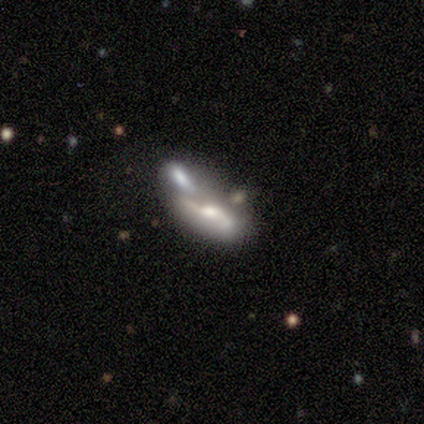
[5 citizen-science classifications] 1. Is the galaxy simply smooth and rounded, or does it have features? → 60% featured or disk, 40% smooth, 0% star or artifact.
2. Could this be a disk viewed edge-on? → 100% no, 0% yes.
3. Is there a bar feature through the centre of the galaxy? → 67% strong, 33% no, 0% weak.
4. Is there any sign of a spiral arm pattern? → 67% yes, 33% no.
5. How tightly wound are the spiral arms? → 100% loose, 0% tight, 0% medium.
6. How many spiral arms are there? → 50% 2 (tied), 50% can't tell (tied), 0% 1, 0% 3, 0% 4, 0% more than 4.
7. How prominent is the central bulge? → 100% moderate, 0% dominant, 0% large, 0% small, 0% none.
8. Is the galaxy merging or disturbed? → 60% merger, 20% none, 20% minor disturbance, 0% major disturbance.